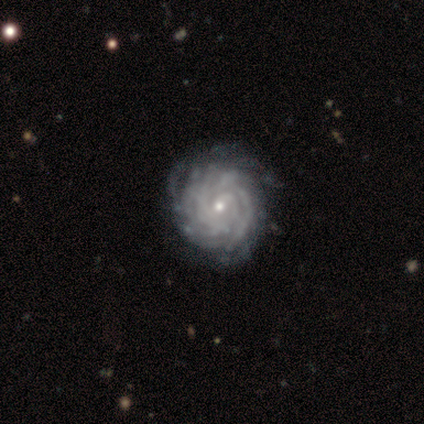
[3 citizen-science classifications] smooth-or-featured: featured or disk: 100% | smooth: 0% | star or artifact: 0%
  disk-edge-on: no: 100% | yes: 0%
    bar: weak: 67% | no: 33% | strong: 0%
    has-spiral-arms: yes: 100% | no: 0%
      spiral-winding: tight: 67% | medium: 33% | loose: 0%
      spiral-arm-count: 3: 33% (tied) | more than 4: 33% (tied) | can't tell: 33% (tied) | 1: 0% | 2: 0% | 4: 0%
    bulge-size: small: 100% | dominant: 0% | large: 0% | moderate: 0% | none: 0%
  merging: none: 67% | minor disturbance: 33% | major disturbance: 0% | merger: 0%